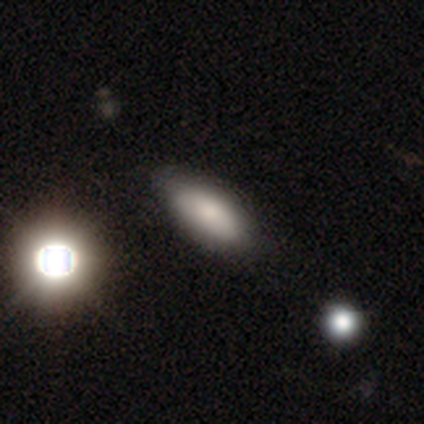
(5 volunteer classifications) smooth_or_featured: smooth (p=1.00)
how_rounded: in between (p=1.00)
merging: none (p=0.80) [alt: minor disturbance p=0.20]